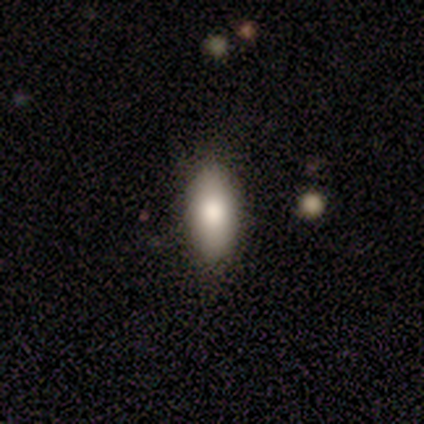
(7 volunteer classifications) smooth 71%, featured or disk 14%, star or artifact 14%. Down the decision tree: how rounded — in between (60%); merging — none (67%).